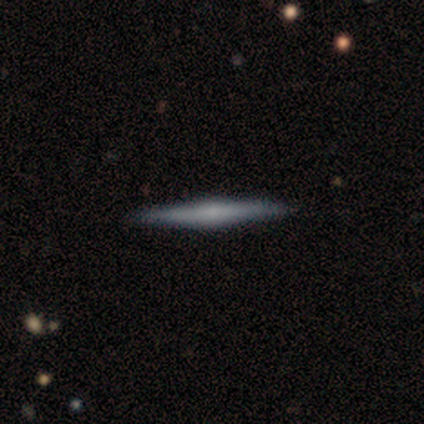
Q: Smooth or featured?
A: featured or disk (76%); runner-up: smooth (14%)
Q: Edge-on disk?
A: yes (100%)
Q: Edge-on bulge?
A: rounded (64%); runner-up: none (25%)
Q: Merging?
A: none (94%); runner-up: minor disturbance (6%)